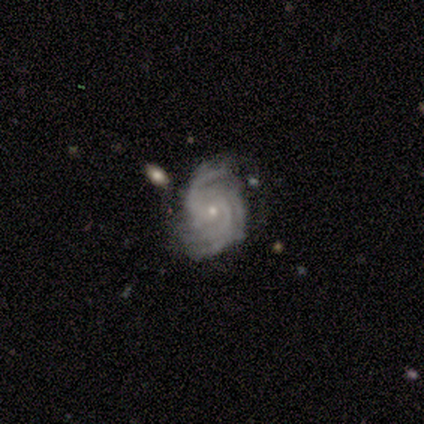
Q: Smooth or featured?
A: featured or disk (86%); runner-up: star or artifact (9%)
Q: Edge-on disk?
A: no (100%)
Q: Bar?
A: no (76%); runner-up: weak (18%)
Q: Spiral arms?
A: yes (100%)
Q: Spiral winding?
A: tight (79%); runner-up: medium (18%)
Q: Spiral arm count?
A: 3 (37%); runner-up: 4 (26%)
Q: Bulge size?
A: small (79%); runner-up: moderate (18%)
Q: Merging?
A: minor disturbance (45%); runner-up: none (42%)